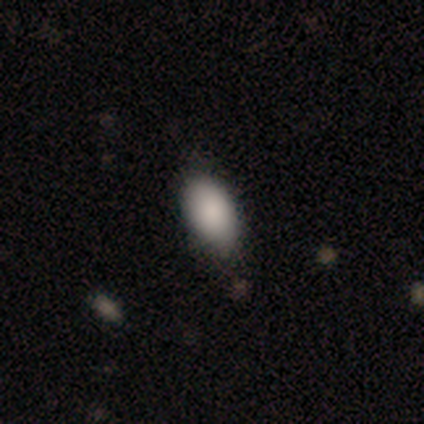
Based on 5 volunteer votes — This appears to be a smooth galaxy with no disk features (80%) that is in between round and cigar-shaped (100%). Merging: none (75%).